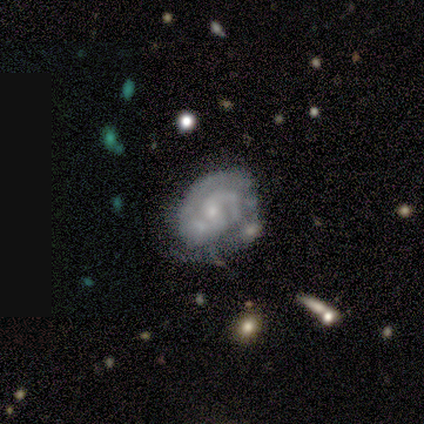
Morphology: type=featured or disk (100%); edge-on=no (100%); bar=no (60%); spiral arms=yes (100%); winding=tight (80%); arm count=2 (60%); bulge=small (80%); merging=none (60%).